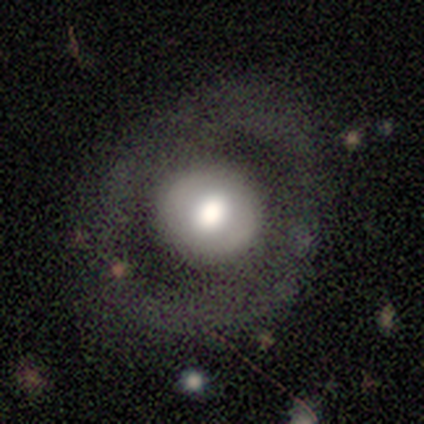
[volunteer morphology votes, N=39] Smooth or featured? 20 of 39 (51%) said featured or disk. Edge-on disk? 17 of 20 (85%) said no. Bar? 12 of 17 (71%) said no. Spiral arms? 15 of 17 (88%) said no. Bulge size? 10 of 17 (59%) said large. Merging? 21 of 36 (58%) said none.